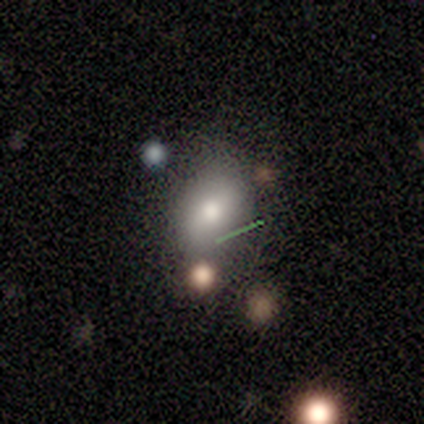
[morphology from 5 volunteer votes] This appears to be a smooth galaxy with no disk features (40%, tied with star or artifact) that is round (50%, tied with in between). Merging: none (67%).